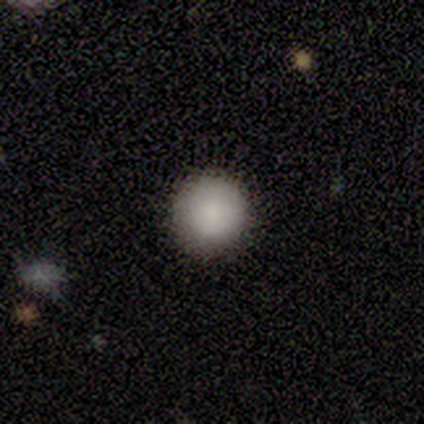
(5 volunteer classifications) Q: Smooth or featured?
A: smooth (100%)
Q: How rounded?
A: round (100%)
Q: Merging?
A: none (80%); runner-up: major disturbance (20%)